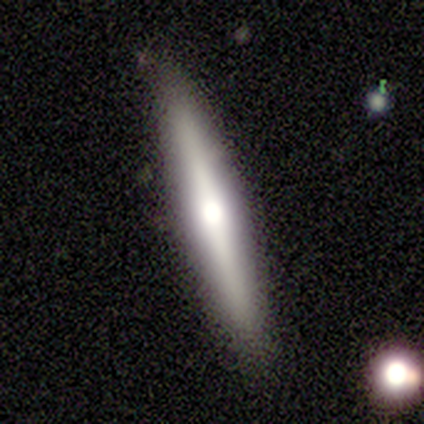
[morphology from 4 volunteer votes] A featured or disk galaxy (75%) viewed edge-on (100%) with a rounded central bulge (67%). Merging: none (100%).